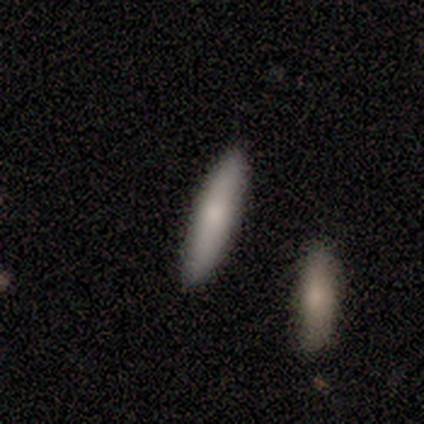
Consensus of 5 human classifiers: Overall: smooth (80%). How rounded: cigar-shaped (100%). Merging: none (80%).